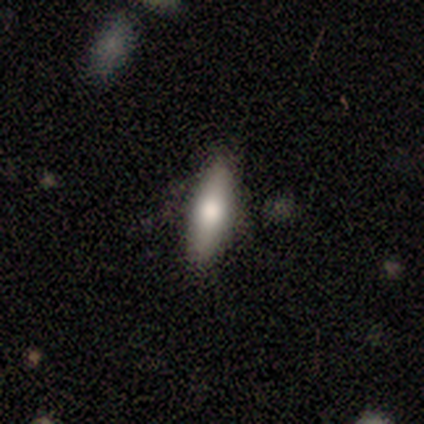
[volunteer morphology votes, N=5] A smooth galaxy with no disk features (80%) that is in between round and cigar-shaped (75%).

Vote fractions:
- Smooth or featured? smooth: 80% / featured or disk: 20% / star or artifact: 0%
- How rounded? in between: 75% / cigar-shaped: 25% / round: 0%
- Merging? none: 80% / minor disturbance: 20% / major disturbance: 0% / merger: 0%